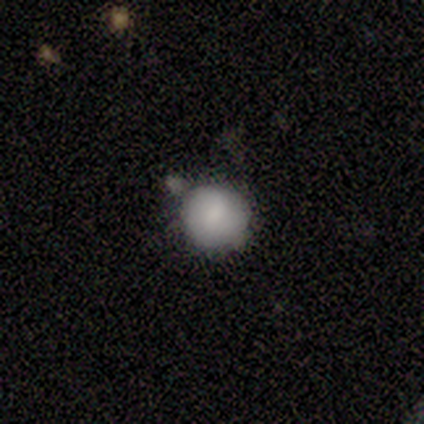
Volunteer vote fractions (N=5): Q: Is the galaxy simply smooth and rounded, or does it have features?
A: smooth — 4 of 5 (80%).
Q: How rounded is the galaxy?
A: round — 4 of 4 (100%).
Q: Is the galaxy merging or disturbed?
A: minor disturbance — 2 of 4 (50%).